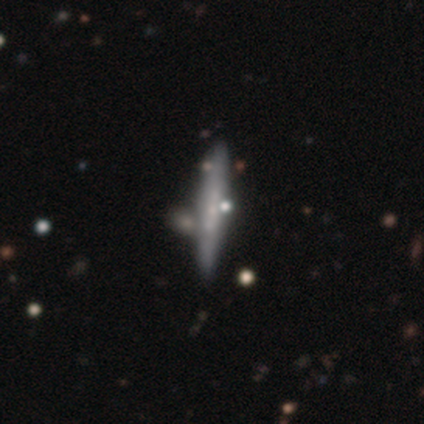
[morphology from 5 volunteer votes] type=smooth (80%); roundness=cigar-shaped (100%); merging=none (80%).